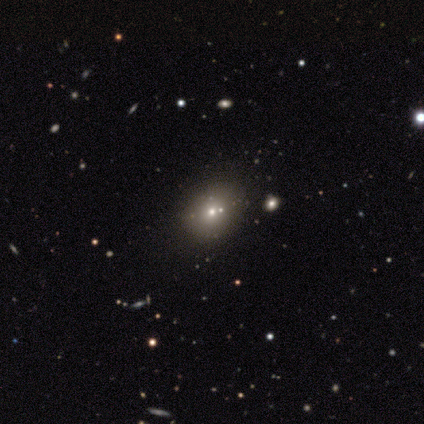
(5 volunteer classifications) This is likely a star or artifact rather than a galaxy (60%).